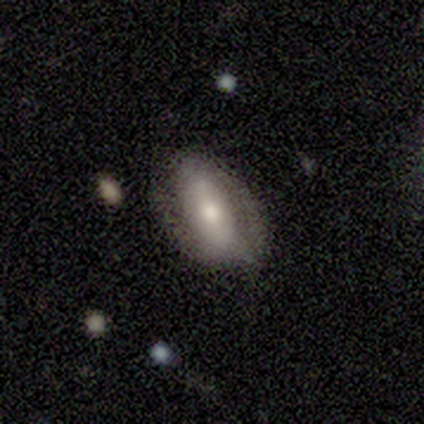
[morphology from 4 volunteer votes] This appears to be a smooth galaxy with no disk features (75%) that is in between round and cigar-shaped (100%). Merging: none (75%).